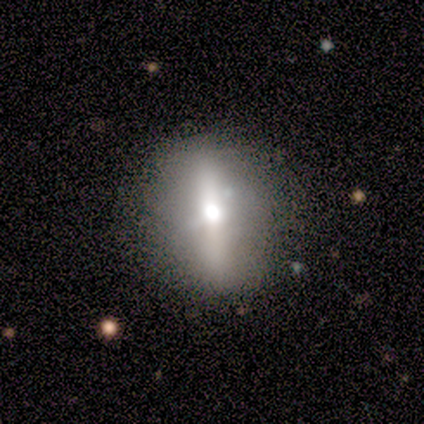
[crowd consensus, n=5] Smooth or featured?
  - featured or disk: 60% *
  - star or artifact: 40%
  - smooth: 0%
Edge-on disk?
  - yes: 67% *
  - no: 33%
Edge-on bulge?
  - rounded: 100% *
  - boxy: 0%
  - none: 0%
Merging?
  - none: 100% *
  - minor disturbance: 0%
  - major disturbance: 0%
  - merger: 0%